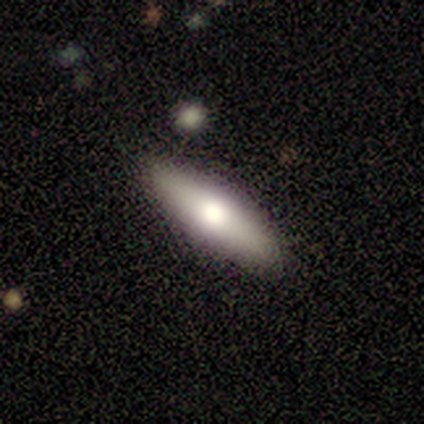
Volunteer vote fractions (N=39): Smooth or featured? smooth (56%)
How rounded? in between (50%, tied with cigar-shaped)
Merging? none (97%)